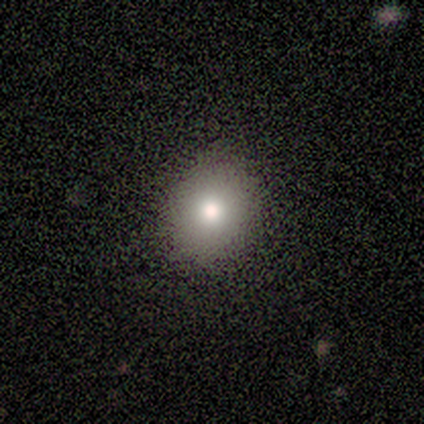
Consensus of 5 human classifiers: Consensus on every question: smooth or featured — smooth (100%); how rounded — round (100%); merging — none (100%).